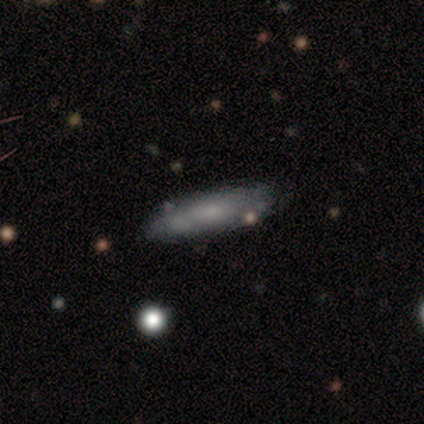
smooth_or_featured: smooth (p=0.50) [alt: star or artifact p=0.33]
how_rounded: in between (p=0.67) [alt: cigar-shaped p=0.33]
merging: none (p=0.50) [tied with: minor disturbance p=0.50]